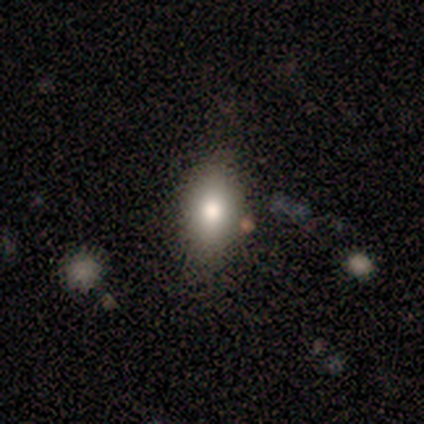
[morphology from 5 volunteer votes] smooth-or-featured: smooth: 80% | star or artifact: 20% | featured or disk: 0%
  how-rounded: in between: 100% | round: 0% | cigar-shaped: 0%
  merging: none: 75% | minor disturbance: 25% | major disturbance: 0% | merger: 0%